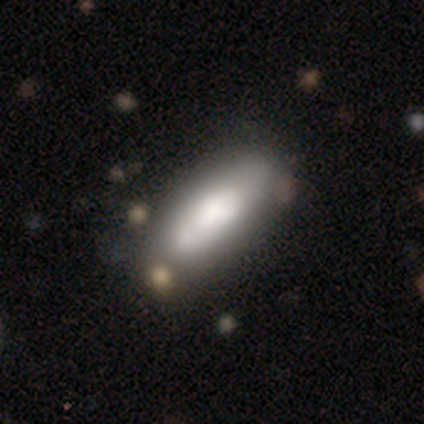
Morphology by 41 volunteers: Smooth or featured? 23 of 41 (56%) said smooth. How rounded? 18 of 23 (78%) said in between. Merging? 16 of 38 (42%) said none.